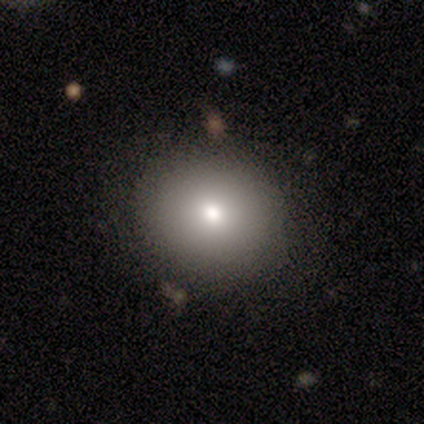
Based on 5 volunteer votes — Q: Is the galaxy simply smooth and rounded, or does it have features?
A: smooth — 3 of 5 (60%).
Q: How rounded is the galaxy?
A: round — 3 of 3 (100%).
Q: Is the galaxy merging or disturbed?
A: none — 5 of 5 (100%).